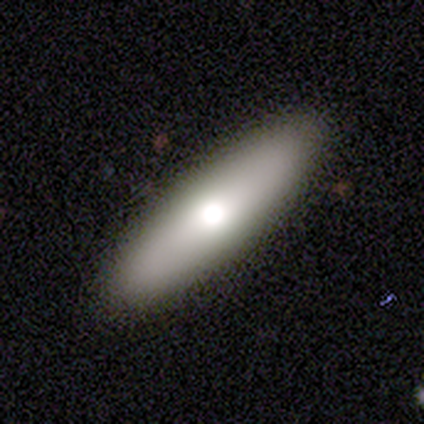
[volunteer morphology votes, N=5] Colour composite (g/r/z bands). It shows a smooth galaxy with no disk features (80%) that is cigar-shaped (75%). Merging: none (75%).